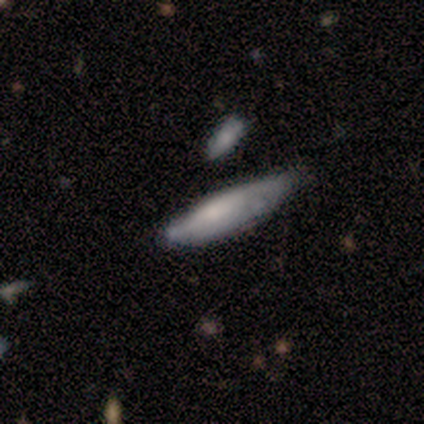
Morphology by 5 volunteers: A smooth galaxy with no disk features (60%) that is cigar-shaped (67%). Merging: minor disturbance (60%).